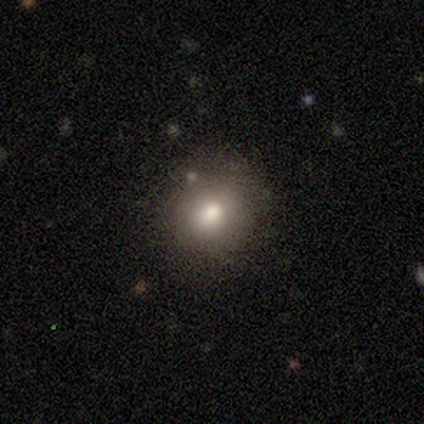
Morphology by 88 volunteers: smooth 77%, star or artifact 14%, featured or disk 9%. Down the decision tree: how rounded — round (88%); merging — none (76%).